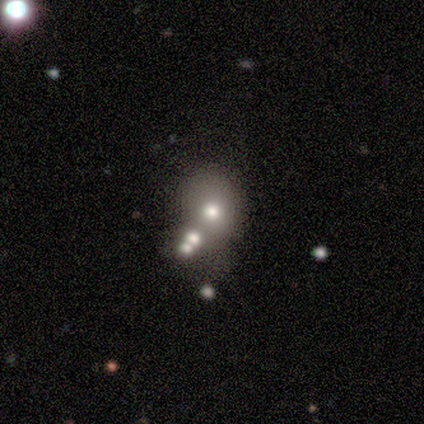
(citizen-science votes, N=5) Smooth or featured: star or artifact — 60% (smooth — 20%)